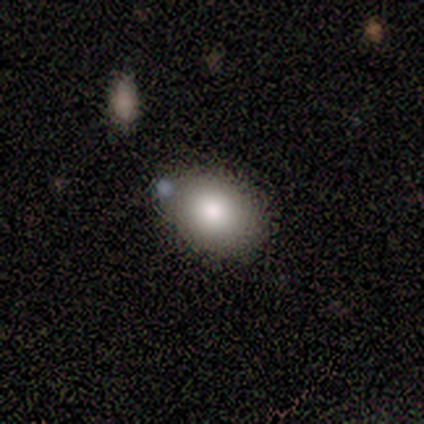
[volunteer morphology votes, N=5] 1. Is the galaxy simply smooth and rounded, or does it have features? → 100% smooth, 0% featured or disk, 0% star or artifact.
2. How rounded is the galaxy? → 60% round, 40% in between, 0% cigar-shaped.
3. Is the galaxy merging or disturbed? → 60% none, 20% minor disturbance, 20% merger, 0% major disturbance.